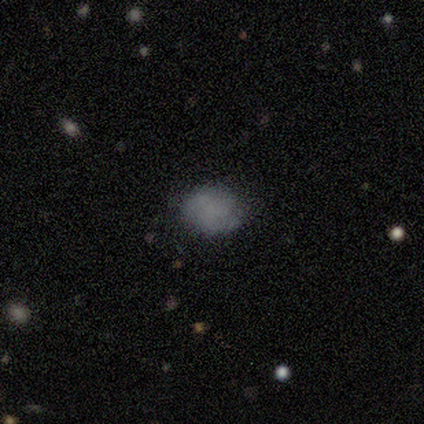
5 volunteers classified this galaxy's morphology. smooth 80%, featured or disk 20%, star or artifact 0%. Down the decision tree: how rounded — in between (75%); merging — none (80%).